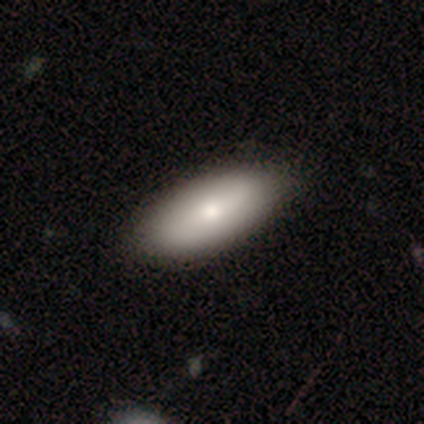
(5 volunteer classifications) smooth 80%, featured or disk 20%, star or artifact 0%. Down the decision tree: how rounded — in between (100%); merging — none (100%).